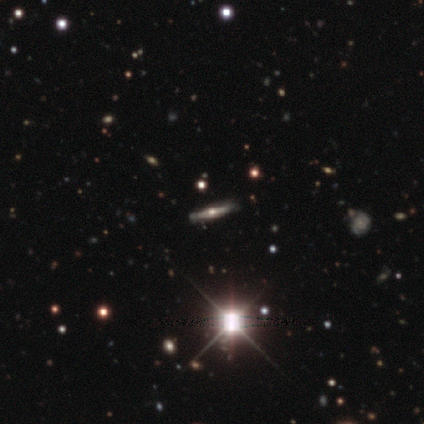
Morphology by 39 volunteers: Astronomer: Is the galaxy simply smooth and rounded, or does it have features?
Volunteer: featured or disk — 59%.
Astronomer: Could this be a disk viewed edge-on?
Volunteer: yes — 100%.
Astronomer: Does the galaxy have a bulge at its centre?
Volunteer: rounded — 87%.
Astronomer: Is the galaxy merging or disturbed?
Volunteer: none — 100%.